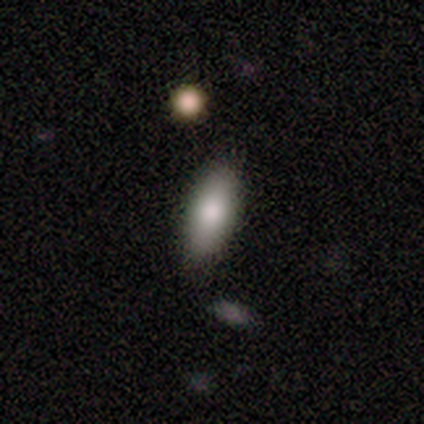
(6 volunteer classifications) smooth-or-featured: smooth: 83% | featured or disk: 17% | star or artifact: 0%
  how-rounded: in between: 80% | cigar-shaped: 20% | round: 0%
  merging: none: 67% | minor disturbance: 33% | major disturbance: 0% | merger: 0%